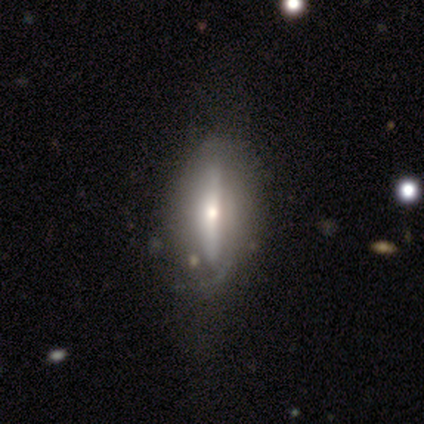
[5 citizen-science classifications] Overall: smooth (60%; featured or disk 40%). How rounded: cigar-shaped (67%; in between 33%). Merging: none (40%, tied with minor disturbance).